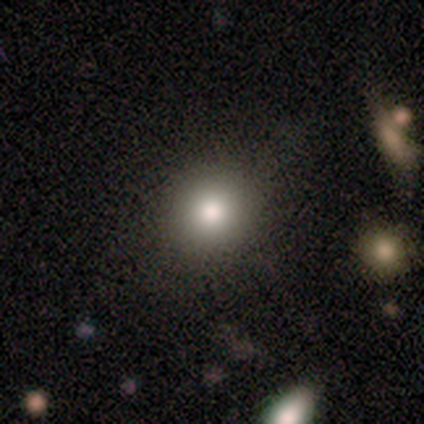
Smooth or featured? smooth (100%)
How rounded? round (50%, tied with in between)
Merging? none (100%)